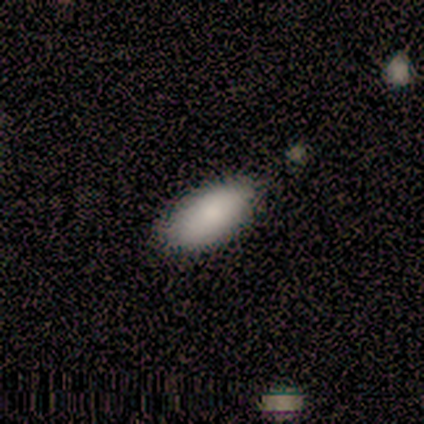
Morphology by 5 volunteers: smooth-or-featured: smooth: 100% | featured or disk: 0% | star or artifact: 0%
  how-rounded: in between: 100% | round: 0% | cigar-shaped: 0%
  merging: none: 80% | minor disturbance: 20% | major disturbance: 0% | merger: 0%